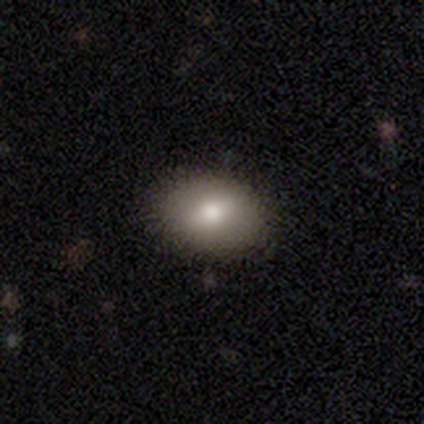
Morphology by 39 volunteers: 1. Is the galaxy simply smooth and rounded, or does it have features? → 79% smooth, 10% featured or disk, 10% star or artifact.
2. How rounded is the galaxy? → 74% in between, 23% round, 3% cigar-shaped.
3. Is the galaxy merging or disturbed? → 83% none, 11% minor disturbance, 3% major disturbance, 3% merger.